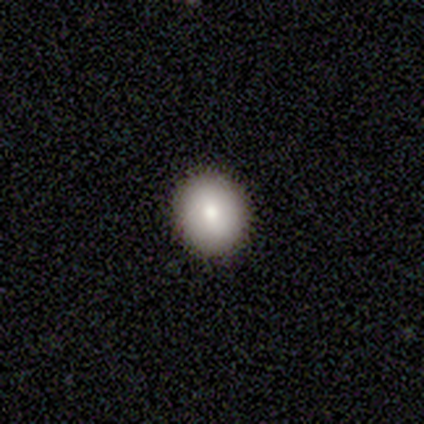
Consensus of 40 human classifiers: Q: Smooth or featured?
A: smooth (80%); runner-up: featured or disk (12%)
Q: How rounded?
A: round (84%); runner-up: in between (12%)
Q: Merging?
A: none (97%); runner-up: major disturbance (3%)